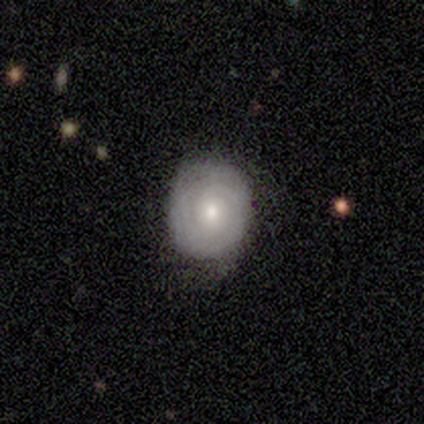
Smooth or featured? featured or disk (80%)
Edge-on disk? no (100%)
Bar? no (100%)
Spiral arms? yes (75%)
Spiral winding? tight (100%)
Spiral arm count? can't tell (67%)
Bulge size? moderate (50%, tied with small)
Merging? none (60%)